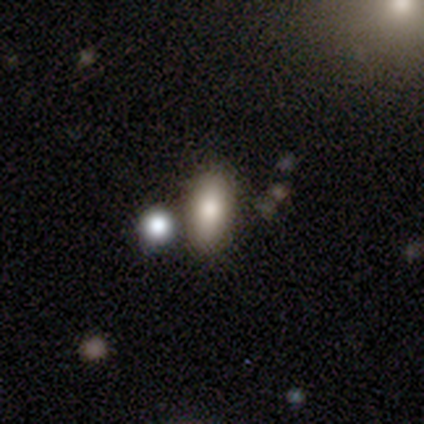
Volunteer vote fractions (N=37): smooth 76%, featured or disk 14%, star or artifact 11%. Down the decision tree: how rounded — in between (93%); merging — none (67%).